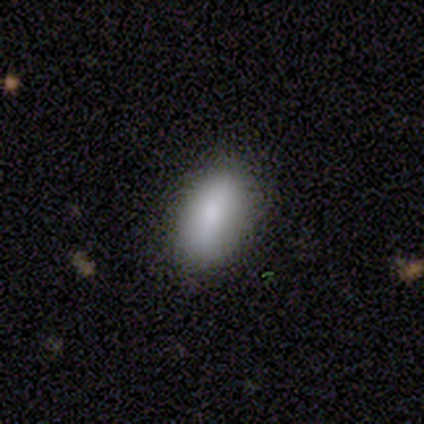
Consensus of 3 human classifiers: Smooth or featured?
  - featured or disk: 67% *
  - smooth: 33%
  - star or artifact: 0%
Edge-on disk?
  - yes: 50% * (tied)
  - no: 50% * (tied)
Edge-on bulge?
  - rounded: 100% *
  - boxy: 0%
  - none: 0%
Merging?
  - none: 100% *
  - minor disturbance: 0%
  - major disturbance: 0%
  - merger: 0%